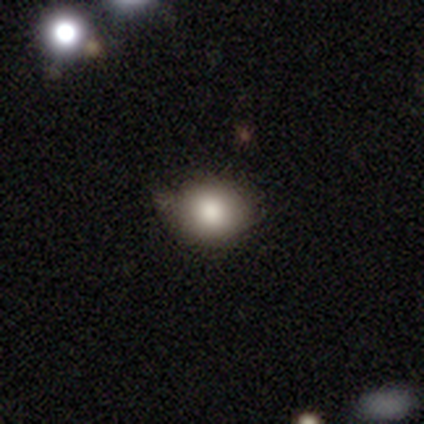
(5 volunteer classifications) A smooth galaxy with no disk features (100%) that is round (60%). Merging: none (60%).